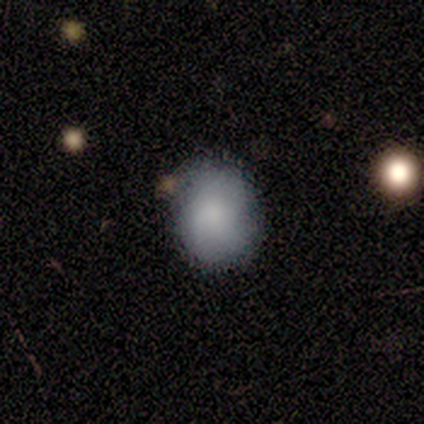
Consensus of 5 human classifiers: smooth-or-featured: smooth: 80% | featured or disk: 20% | star or artifact: 0%
  how-rounded: round: 50% (tied) | in between: 50% (tied) | cigar-shaped: 0%
  merging: none: 40% (tied) | minor disturbance: 40% (tied) | merger: 20% | major disturbance: 0%